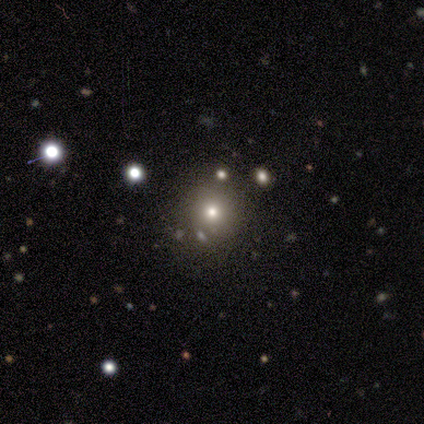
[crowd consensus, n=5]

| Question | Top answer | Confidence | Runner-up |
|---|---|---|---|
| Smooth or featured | smooth | 80% | star or artifact (20%) |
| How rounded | round | 100% | — |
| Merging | none | 100% | — |